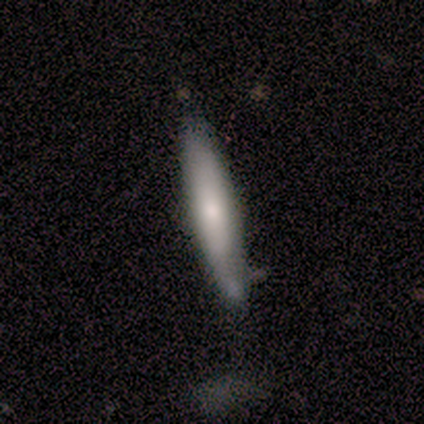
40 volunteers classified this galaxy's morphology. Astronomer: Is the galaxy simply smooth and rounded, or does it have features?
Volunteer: smooth — 72%.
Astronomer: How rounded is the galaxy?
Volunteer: cigar-shaped — 90%.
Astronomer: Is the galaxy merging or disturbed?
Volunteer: none — 52%.